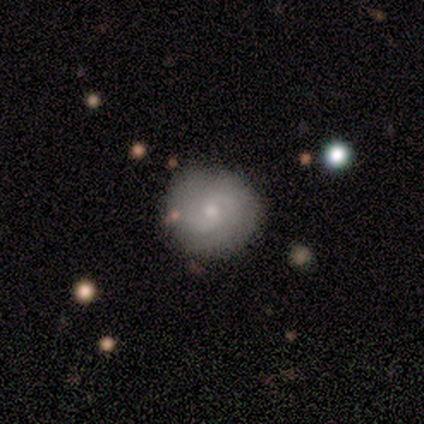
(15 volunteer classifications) featured or disk 67%, smooth 33%, star or artifact 0%. Down the decision tree: edge-on disk — no (100%); bar — no (80%); spiral arms — yes (90%); spiral arm count — 2 (67%); spiral winding — tight (56%); bulge size — small (70%); merging — none (87%).